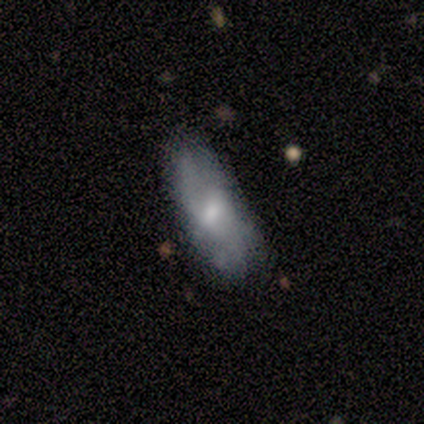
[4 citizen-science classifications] This is possibly a smooth galaxy (50%, tied with featured or disk). How rounded: clearly in between (100%). Merging: possibly none (50%).